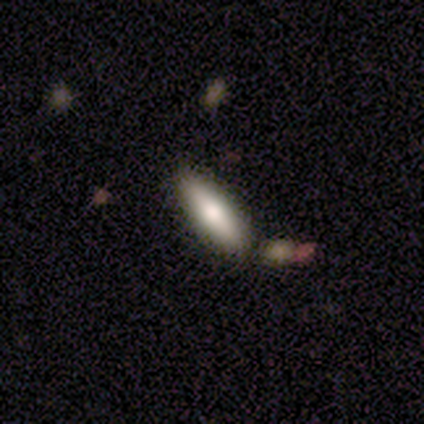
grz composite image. It shows a smooth galaxy with no disk features (67%) that is in between round and cigar-shaped (58%). Merging: none (47%).